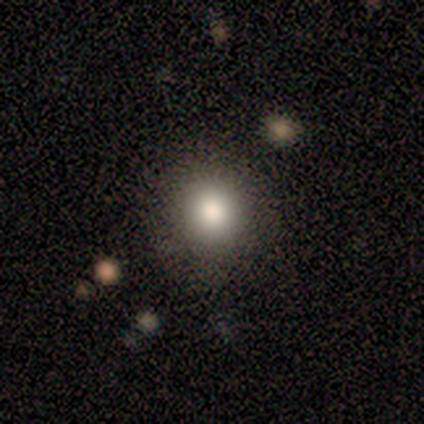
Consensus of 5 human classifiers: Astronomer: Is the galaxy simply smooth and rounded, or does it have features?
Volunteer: smooth — 100%.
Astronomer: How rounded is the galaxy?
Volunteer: round — 100%.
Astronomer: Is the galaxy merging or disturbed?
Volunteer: none — 100%.